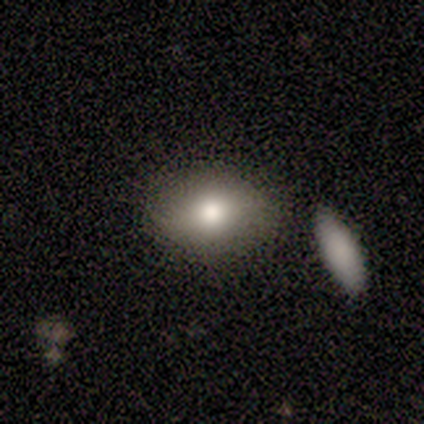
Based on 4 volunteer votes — smooth 75%, featured or disk 25%, star or artifact 0%. Down the decision tree: how rounded — round (67%); merging — none (100%).